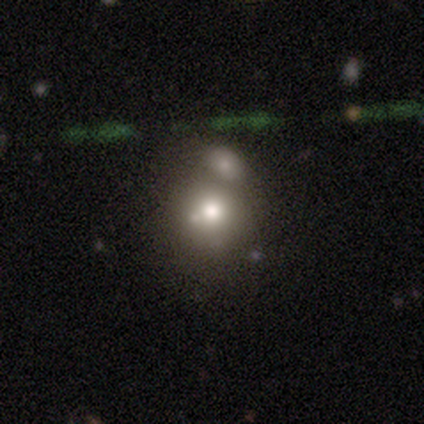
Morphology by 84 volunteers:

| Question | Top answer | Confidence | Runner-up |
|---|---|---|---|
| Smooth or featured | smooth | 57% | featured or disk (27%) |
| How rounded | round | 88% | in between (10%) |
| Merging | merger | 51% | none (34%) |